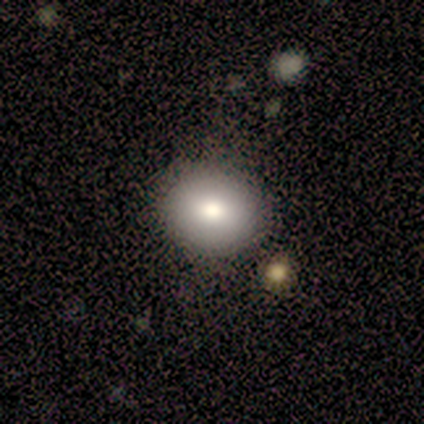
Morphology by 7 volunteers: Smooth or featured? smooth (71%)
How rounded? round (60%)
Merging? none (100%)